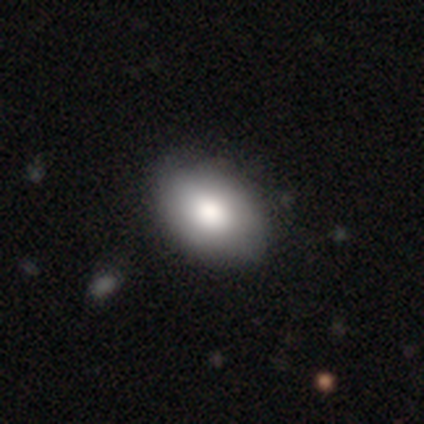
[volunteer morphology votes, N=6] Smooth or featured: smooth — 100%
How rounded: in between — 83% (round — 17%)
Merging: none — 67% (minor disturbance — 17%)